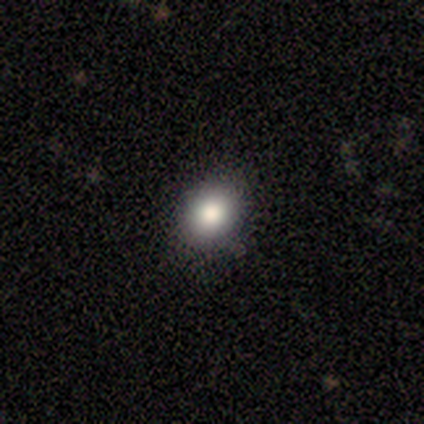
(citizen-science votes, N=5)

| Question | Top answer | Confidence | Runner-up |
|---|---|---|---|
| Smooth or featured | smooth | 80% | star or artifact (20%) |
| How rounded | round | 50% | tied: in between (50%) |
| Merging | none | 100% | — |